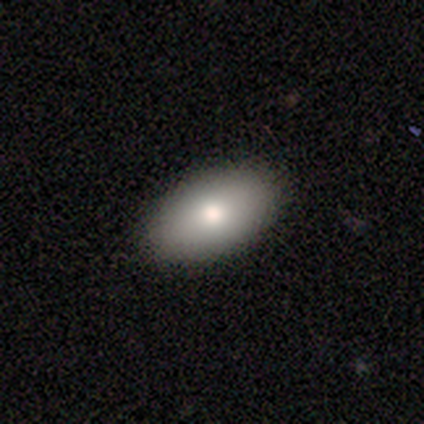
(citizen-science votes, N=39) Smooth or featured? 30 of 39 (77%) said smooth. How rounded? 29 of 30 (97%) said in between. Merging? 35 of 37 (95%) said none.